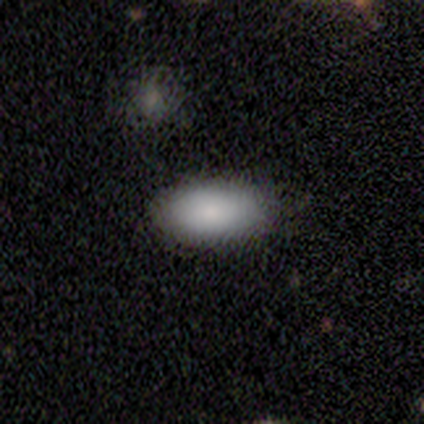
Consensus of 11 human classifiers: Volunteers were most divided on "how rounded": in between: 80%, round: 20%, cigar-shaped: 0%. More confident: smooth or featured — smooth (91%); merging — none (90%).